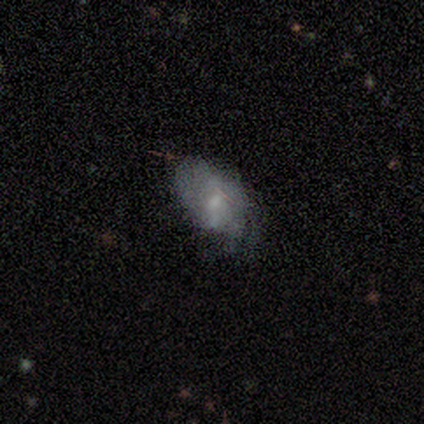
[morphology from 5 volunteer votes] A smooth galaxy with no disk features (60%) that is in between round and cigar-shaped (100%). Merging: minor disturbance (40%, tied with major disturbance).